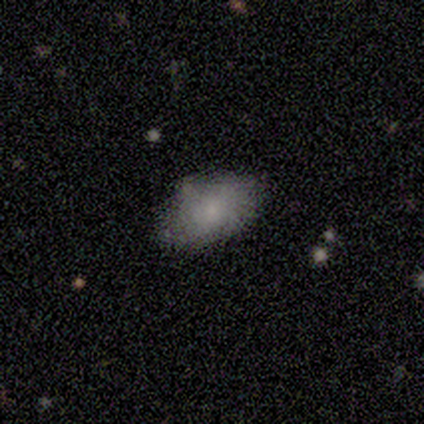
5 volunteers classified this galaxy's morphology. Smooth or featured? 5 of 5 (100%) said smooth. How rounded? 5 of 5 (100%) said in between. Merging? 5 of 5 (100%) said none.